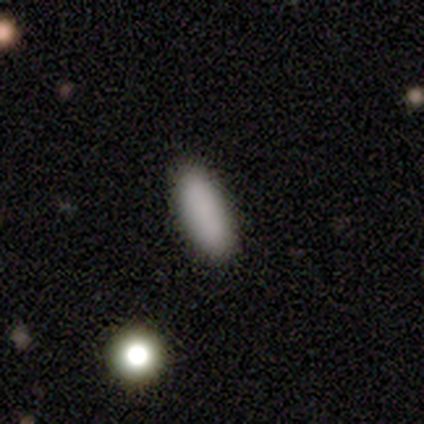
Q: Smooth or featured?
A: smooth (86%); runner-up: featured or disk (8%)
Q: How rounded?
A: in between (53%); runner-up: cigar-shaped (47%)
Q: Merging?
A: none (86%); runner-up: minor disturbance (9%)